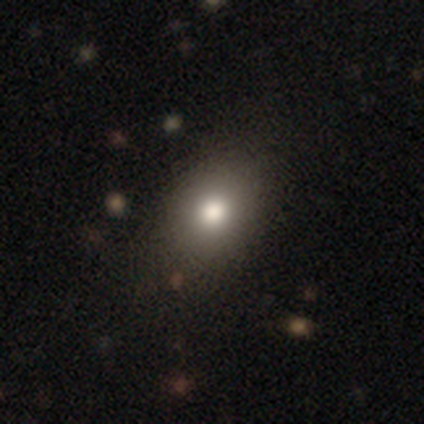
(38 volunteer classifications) Smooth or featured? 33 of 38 (87%) said smooth. How rounded? 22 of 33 (67%) said in between. Merging? 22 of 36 (61%) said none.